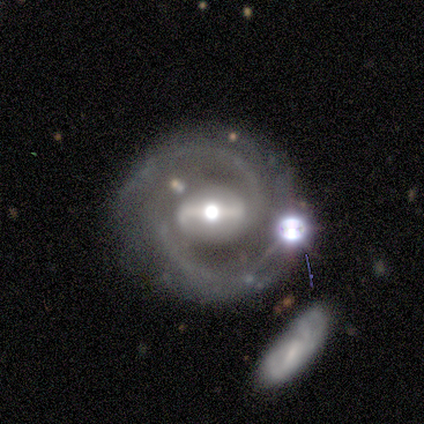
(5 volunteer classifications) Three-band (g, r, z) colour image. It shows a featured or disk galaxy (100%) with a strong bar (80%), 2 (100%) medium (60%) spiral arms (100%) and a moderate central bulge (80%). Merging: none (100%).